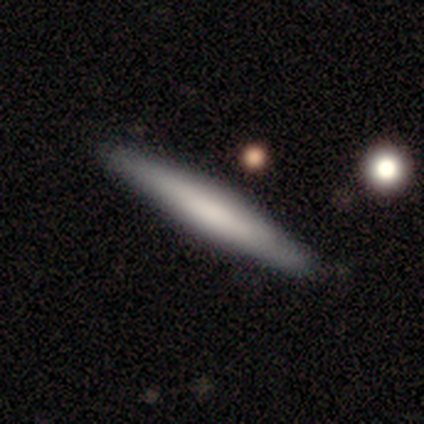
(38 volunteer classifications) Smooth or featured? smooth (58%)
How rounded? cigar-shaped (100%)
Merging? none (89%)